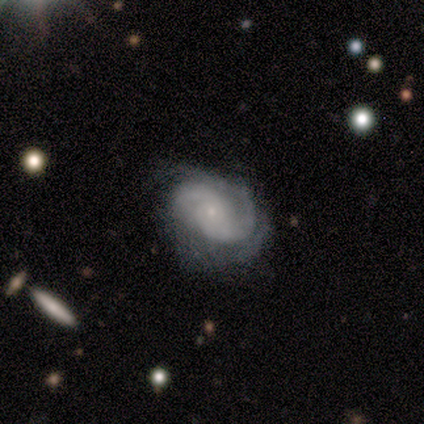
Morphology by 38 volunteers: Smooth or featured: featured or disk — 79% (star or artifact — 13%)
Edge-on disk: no — 97% (yes — 3%)
Bar: no — 79% (weak — 14%)
Spiral arms: yes — 100%
Spiral winding: tight — 48% (medium — 31%)
Spiral arm count: 2 — 79% (3 — 10%)
Bulge size: small — 86% (moderate — 10%)
Merging: none — 67% (major disturbance — 18%)